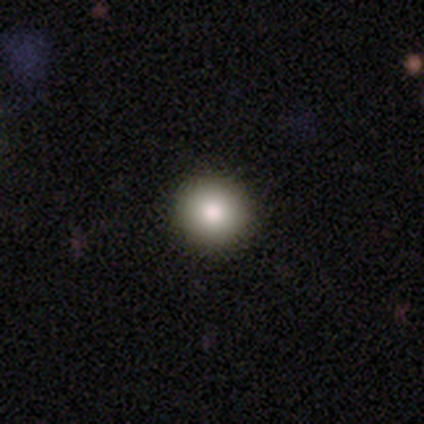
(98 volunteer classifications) This is likely a smooth galaxy (77%). How rounded: clearly round (97%). Merging: clearly none (91%).